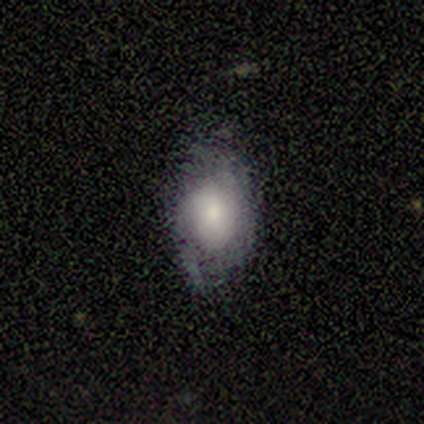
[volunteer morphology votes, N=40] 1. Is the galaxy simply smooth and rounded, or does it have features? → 50% smooth, 40% featured or disk, 10% star or artifact.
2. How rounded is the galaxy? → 90% in between, 10% round, 0% cigar-shaped.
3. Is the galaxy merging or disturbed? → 67% none, 28% minor disturbance, 6% major disturbance, 0% merger.